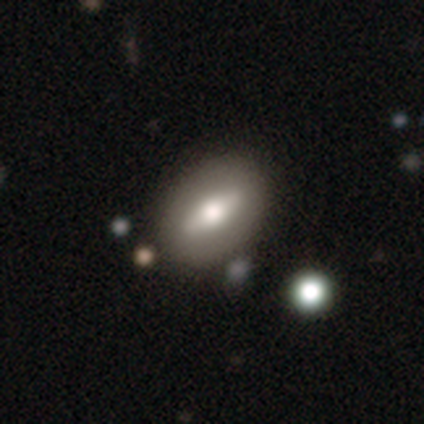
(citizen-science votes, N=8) smooth 50%, featured or disk 38%, star or artifact 12%. Down the decision tree: how rounded — in between (100%); merging — none (86%).